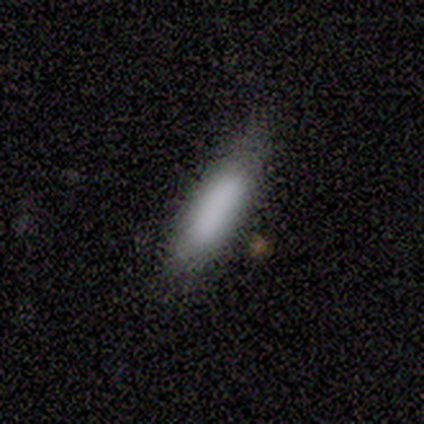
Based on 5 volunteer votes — smooth-or-featured: smooth: 100% | featured or disk: 0% | star or artifact: 0%
  how-rounded: cigar-shaped: 100% | round: 0% | in between: 0%
  merging: none: 80% | minor disturbance: 20% | major disturbance: 0% | merger: 0%